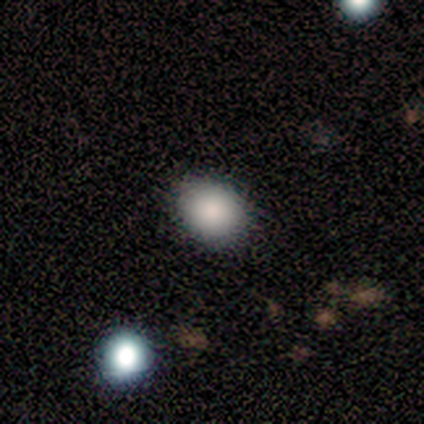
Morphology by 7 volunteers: Smooth or featured? 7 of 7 (100%) said smooth. How rounded? 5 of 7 (71%) said in between. Merging? 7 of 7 (100%) said none.